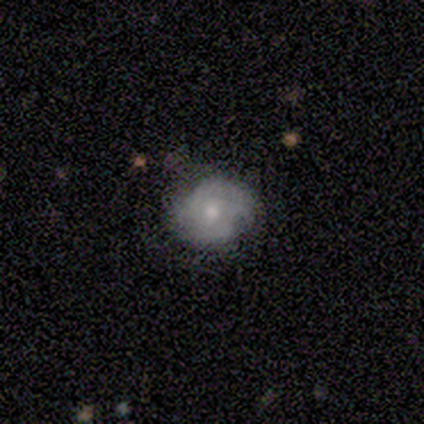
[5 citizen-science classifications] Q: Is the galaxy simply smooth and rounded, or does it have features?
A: featured or disk — 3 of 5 (60%).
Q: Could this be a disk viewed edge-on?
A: no — 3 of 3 (100%).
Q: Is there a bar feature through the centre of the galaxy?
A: no — 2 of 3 (67%).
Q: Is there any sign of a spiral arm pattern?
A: yes — 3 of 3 (100%).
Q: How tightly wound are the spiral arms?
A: tight — 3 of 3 (100%).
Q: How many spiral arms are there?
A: can't tell — 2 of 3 (67%).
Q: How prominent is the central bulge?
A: moderate — 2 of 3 (67%).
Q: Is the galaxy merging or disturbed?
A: none — 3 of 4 (75%).